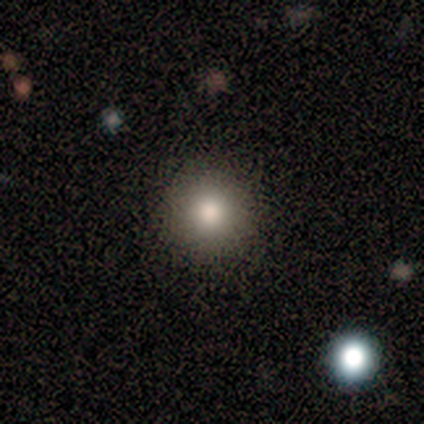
Q: Smooth or featured?
A: smooth (100%)
Q: How rounded?
A: round (100%)
Q: Merging?
A: none (75%); runner-up: major disturbance (25%)